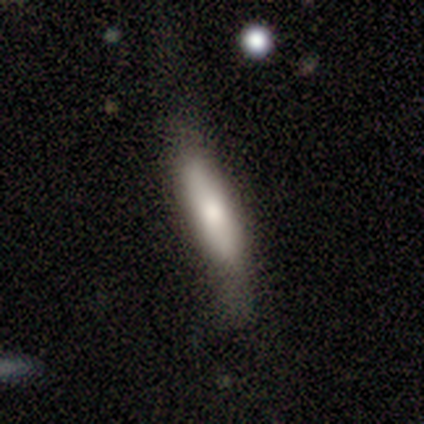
smooth-or-featured: smooth: 80% | featured or disk: 20% | star or artifact: 0%
  how-rounded: cigar-shaped: 100% | round: 0% | in between: 0%
  merging: none: 40% (tied) | major disturbance: 40% (tied) | minor disturbance: 20% | merger: 0%